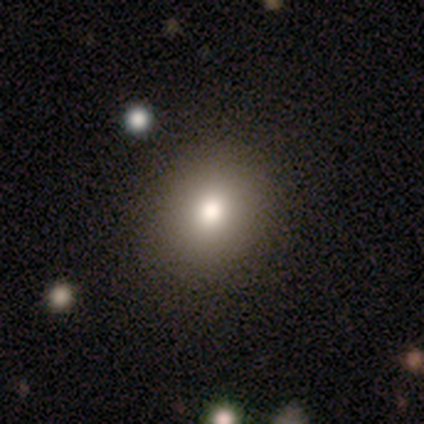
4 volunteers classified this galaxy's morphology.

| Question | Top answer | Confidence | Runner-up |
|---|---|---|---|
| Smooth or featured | smooth | 50% | featured or disk (25%) |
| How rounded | in between | 100% | — |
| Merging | none | 100% | — |